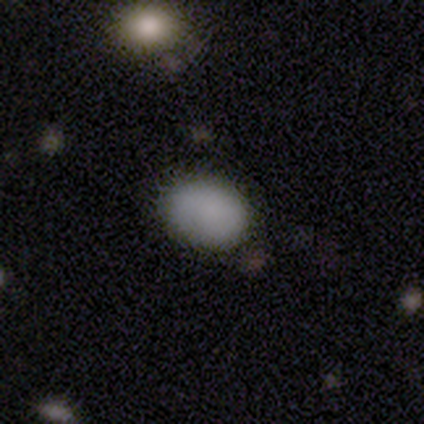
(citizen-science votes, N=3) smooth-or-featured: smooth: 100% | featured or disk: 0% | star or artifact: 0%
  how-rounded: in between: 67% | round: 33% | cigar-shaped: 0%
  merging: minor disturbance: 67% | none: 33% | major disturbance: 0% | merger: 0%